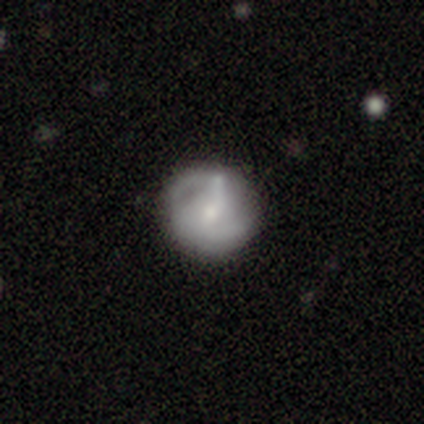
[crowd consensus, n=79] Smooth or featured?
  - featured or disk: 58% *
  - smooth: 39%
  - star or artifact: 3%
Edge-on disk?
  - no: 100% *
  - yes: 0%
Bar?
  - no: 54% *
  - weak: 35%
  - strong: 11%
Spiral arms?
  - yes: 83% *
  - no: 17%
Spiral winding?
  - tight: 39% *
  - medium: 37%
  - loose: 24%
Spiral arm count?
  - 2: 63% *
  - can't tell: 34%
  - 3: 3%
  - 1: 0%
  - 4: 0%
  - more than 4: 0%
Bulge size?
  - small: 59% *
  - moderate: 24%
  - none: 11%
  - large: 4%
  - dominant: 2%
Merging?
  - none: 42% *
  - minor disturbance: 16%
  - merger: 10%
  - major disturbance: 3%